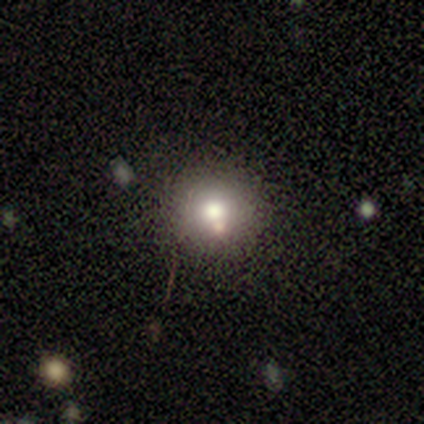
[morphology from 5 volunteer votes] Overall: smooth (80%). How rounded: round (50%, tied with in between). Merging: none (80%).